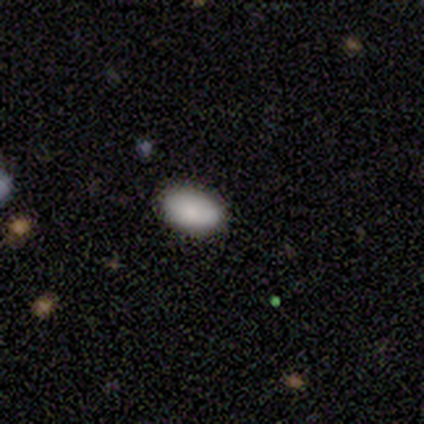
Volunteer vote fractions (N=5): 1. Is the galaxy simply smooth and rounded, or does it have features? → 80% smooth, 20% featured or disk, 0% star or artifact.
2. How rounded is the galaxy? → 100% in between, 0% round, 0% cigar-shaped.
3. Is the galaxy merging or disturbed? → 100% none, 0% minor disturbance, 0% major disturbance, 0% merger.